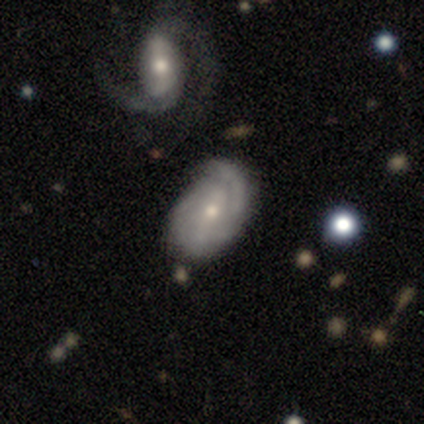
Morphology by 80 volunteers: Volunteers were most divided on "bar": weak: 37%, strong: 32%, no: 31%. Remaining: edge-on disk — no (97%); spiral arms — yes (87%); smooth or featured — featured or disk (80%); spiral winding — tight (70%); spiral arm count — 2 (56%); bulge size — moderate (52%); merging — none (49%).